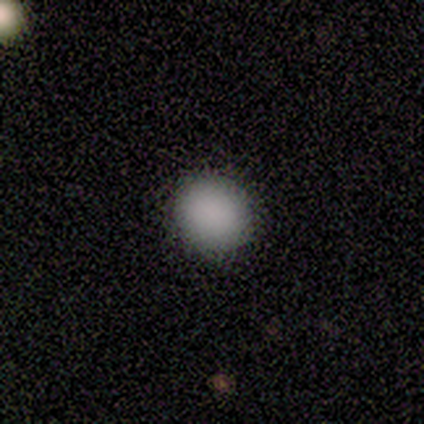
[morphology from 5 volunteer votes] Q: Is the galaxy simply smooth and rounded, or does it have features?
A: smooth — 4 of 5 (80%).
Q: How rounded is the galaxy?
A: round — 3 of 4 (75%).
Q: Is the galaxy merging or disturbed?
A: none — 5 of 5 (100%).